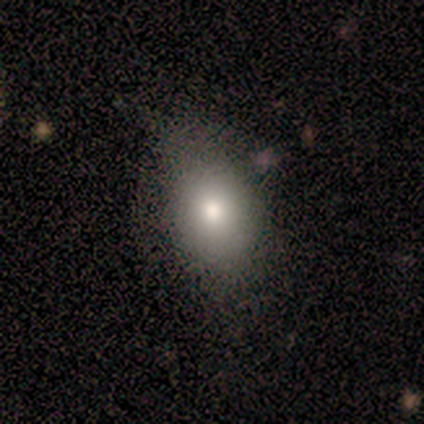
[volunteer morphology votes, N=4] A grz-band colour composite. It shows a smooth galaxy with no disk features (100%) that is round (50%, tied with in between). Merging: none (75%).